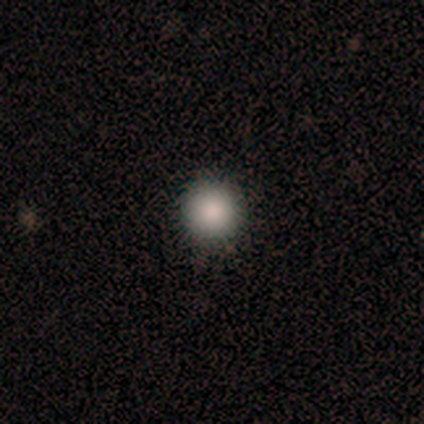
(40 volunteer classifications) Volunteers were most divided on "smooth or featured": smooth: 85%, featured or disk: 8%, star or artifact: 8%. More confident: how rounded — round (97%); merging — none (95%).